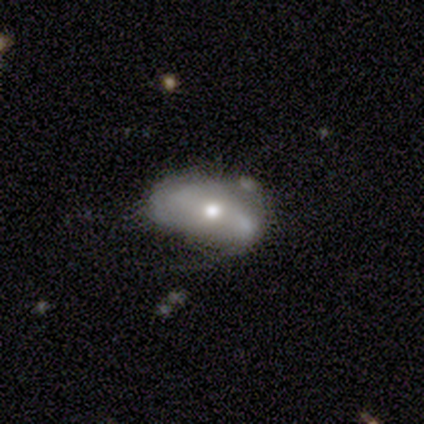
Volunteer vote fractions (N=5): Q: Smooth or featured?
A: featured or disk (60%); runner-up: smooth (40%)
Q: Edge-on disk?
A: no (100%)
Q: Bar?
A: no (67%); runner-up: strong (33%)
Q: Spiral arms?
A: yes (67%); runner-up: no (33%)
Q: Spiral winding?
A: loose (100%)
Q: Spiral arm count?
A: 3 (50%); tied with: can't tell (50%)
Q: Bulge size?
A: small (67%); runner-up: moderate (33%)
Q: Merging?
A: minor disturbance (60%); runner-up: none (20%)